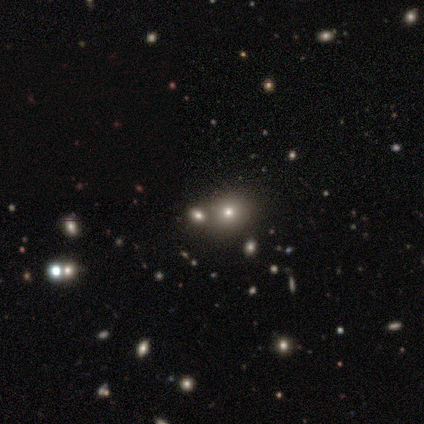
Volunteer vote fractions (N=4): A smooth galaxy with no disk features (75%) that is round (100%).

Vote fractions:
- Smooth or featured? smooth: 75% / star or artifact: 25% / featured or disk: 0%
- How rounded? round: 100% / in between: 0% / cigar-shaped: 0%
- Merging? none: 100% / minor disturbance: 0% / major disturbance: 0% / merger: 0%